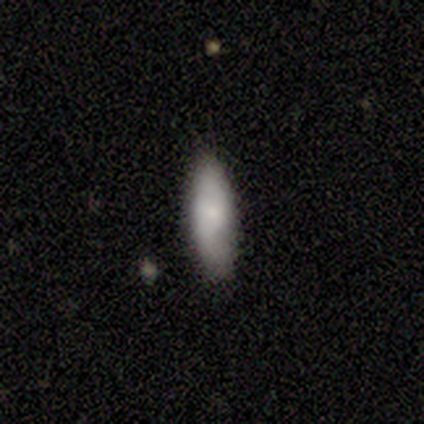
Volunteers were most divided on "how rounded" (2-way tie): in between: 40%, cigar-shaped: 40%, round: 20%. More confident: smooth or featured — smooth (100%); merging — none (80%).